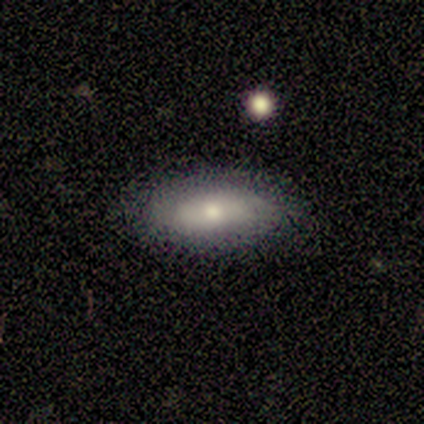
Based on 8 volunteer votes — A smooth galaxy with no disk features (88%) that is in between round and cigar-shaped (100%). Merging: none (75%).